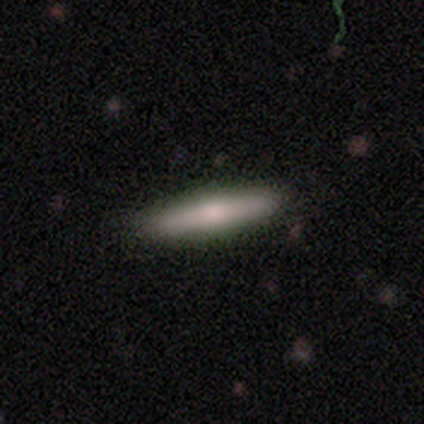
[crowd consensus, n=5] Smooth or featured?
  - smooth: 60% *
  - featured or disk: 40%
  - star or artifact: 0%
How rounded?
  - cigar-shaped: 100% *
  - round: 0%
  - in between: 0%
Merging?
  - none: 100% *
  - minor disturbance: 0%
  - major disturbance: 0%
  - merger: 0%